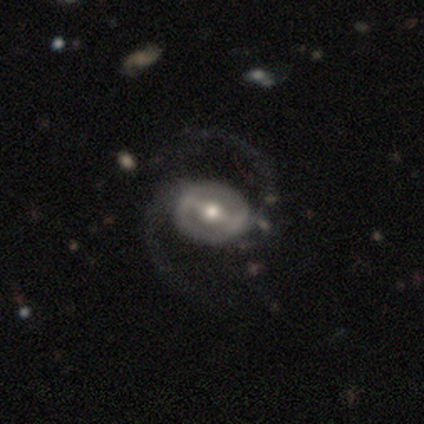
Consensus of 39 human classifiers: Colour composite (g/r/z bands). It shows a featured or disk galaxy (90%) with a strong bar (74%), 2 (97%) loose (62%) spiral arms (91%) and a moderate central bulge (69%). Merging: none (50%).